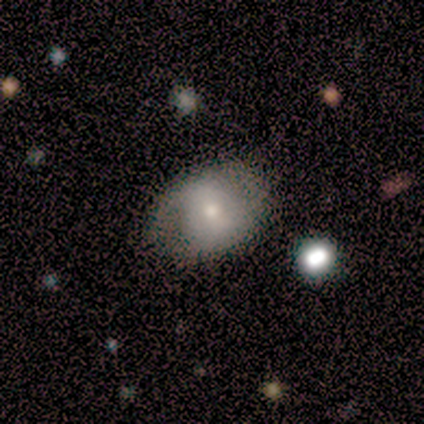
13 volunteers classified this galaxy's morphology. smooth_or_featured: smooth (p=0.77) [alt: featured or disk p=0.23]
how_rounded: round (p=0.50) [tied with: in between p=0.50]
merging: none (p=0.62) [alt: minor disturbance p=0.23]